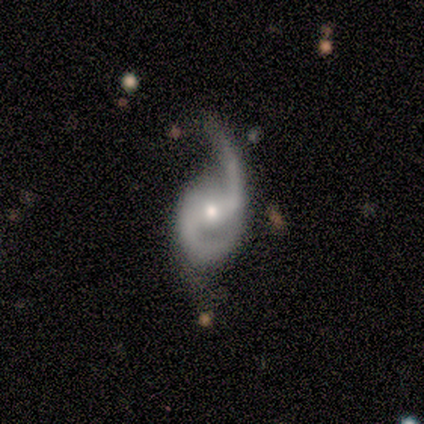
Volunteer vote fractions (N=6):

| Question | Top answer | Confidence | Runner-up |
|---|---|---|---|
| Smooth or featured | featured or disk | 100% | — |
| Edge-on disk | no | 100% | — |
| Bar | weak | 67% | no (33%) |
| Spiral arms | yes | 100% | — |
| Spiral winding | medium | 83% | loose (17%) |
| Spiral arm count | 2 | 83% | 1 (17%) |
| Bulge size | moderate | 50% | tied: small (50%) |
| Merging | none | 50% | tied: minor disturbance (50%) |